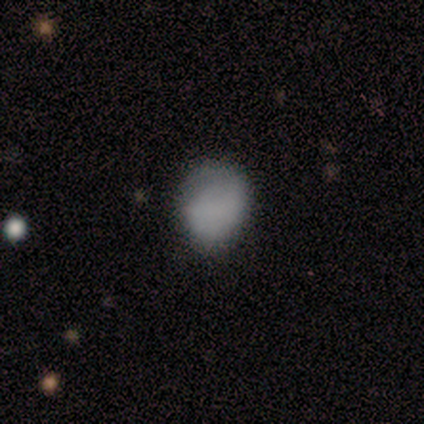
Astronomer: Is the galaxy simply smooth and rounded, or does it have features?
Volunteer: smooth — 80%.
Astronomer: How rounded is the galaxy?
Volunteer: round — 75%.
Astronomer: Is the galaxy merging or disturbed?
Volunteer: none — 75%.